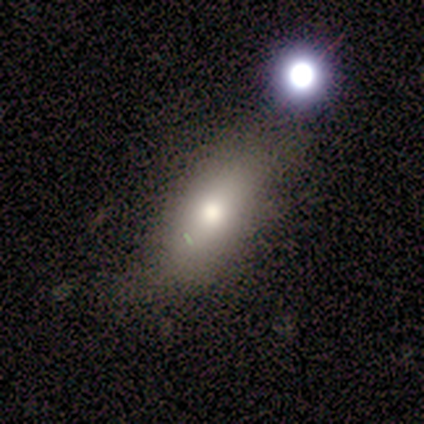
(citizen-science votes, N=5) Smooth or featured?
  - smooth: 80% *
  - featured or disk: 20%
  - star or artifact: 0%
How rounded?
  - in between: 75% *
  - cigar-shaped: 25%
  - round: 0%
Merging?
  - none: 80% *
  - merger: 20%
  - minor disturbance: 0%
  - major disturbance: 0%